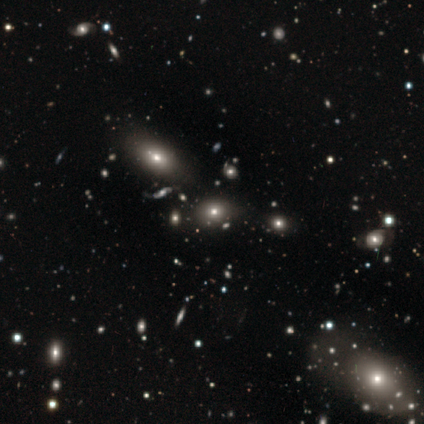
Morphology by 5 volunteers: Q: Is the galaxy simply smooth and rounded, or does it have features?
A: featured or disk — 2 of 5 (40%, tied with star or artifact).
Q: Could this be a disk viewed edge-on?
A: yes — 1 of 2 (50%, tied with no).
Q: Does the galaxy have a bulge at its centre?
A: rounded — 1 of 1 (100%).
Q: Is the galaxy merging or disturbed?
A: minor disturbance — 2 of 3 (67%).